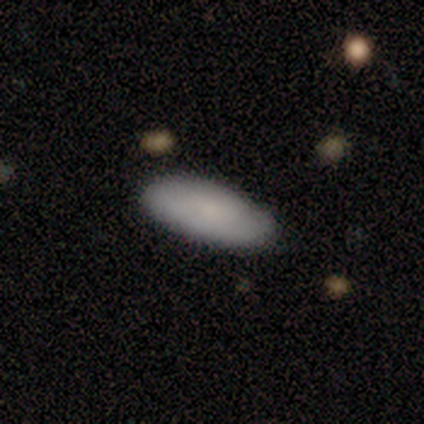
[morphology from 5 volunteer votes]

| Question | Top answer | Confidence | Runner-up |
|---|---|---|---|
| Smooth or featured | smooth | 80% | featured or disk (20%) |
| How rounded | in between | 100% | — |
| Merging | none | 80% | minor disturbance (20%) |